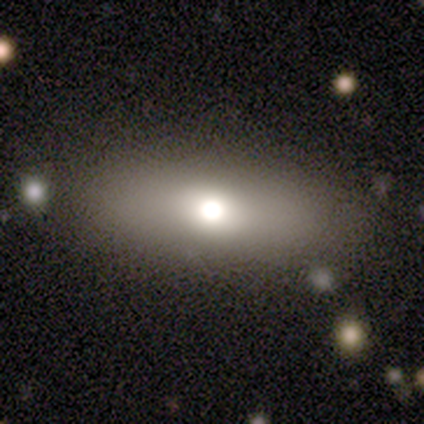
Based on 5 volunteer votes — This appears to be a smooth galaxy with no disk features (100%) that is in between round and cigar-shaped (60%). Merging: none (80%).